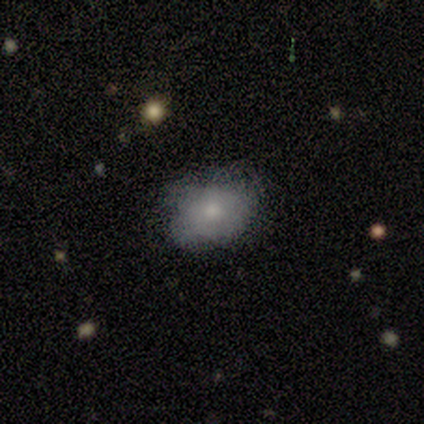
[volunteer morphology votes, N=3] smooth 67%, star or artifact 33%, featured or disk 0%. Down the decision tree: how rounded — in between (100%); merging — none (100%).